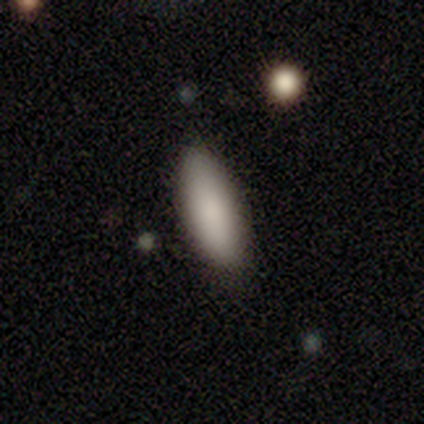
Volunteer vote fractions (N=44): smooth 93%, featured or disk 5%, star or artifact 2%. Down the decision tree: how rounded — in between (80%); merging — none (95%).